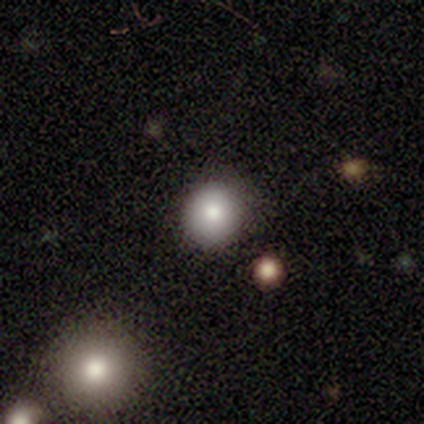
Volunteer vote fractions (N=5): This is clearly a smooth galaxy (80%). How rounded: clearly round (100%). Merging: clearly none (100%).